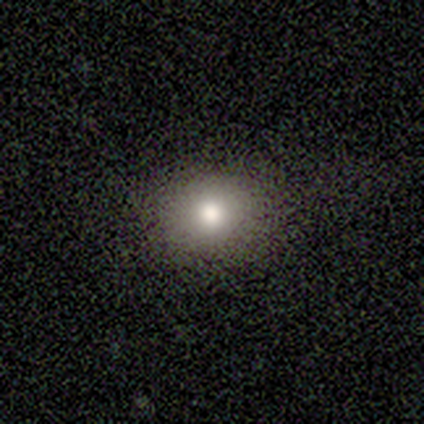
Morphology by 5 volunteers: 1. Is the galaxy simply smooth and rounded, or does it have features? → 60% smooth, 40% star or artifact, 0% featured or disk.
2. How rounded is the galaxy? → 100% round, 0% in between, 0% cigar-shaped.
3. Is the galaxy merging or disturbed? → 67% minor disturbance, 33% none, 0% major disturbance, 0% merger.